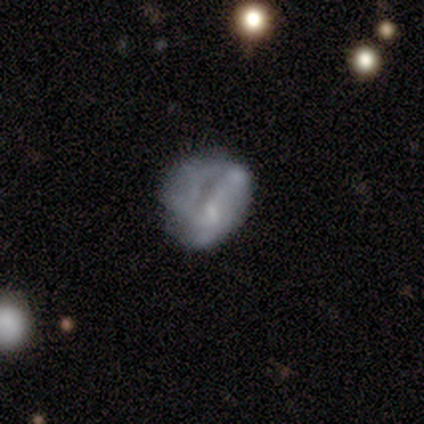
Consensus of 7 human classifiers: smooth-or-featured: featured or disk: 57% | smooth: 43% | star or artifact: 0%
  disk-edge-on: no: 100% | yes: 0%
    bar: weak: 50% (tied) | no: 50% (tied) | strong: 0%
    has-spiral-arms: no: 75% | yes: 25%
    bulge-size: small: 75% | none: 25% | dominant: 0% | large: 0% | moderate: 0%
  merging: minor disturbance: 29% (tied) | major disturbance: 29% (tied) | merger: 29% (tied) | none: 14%